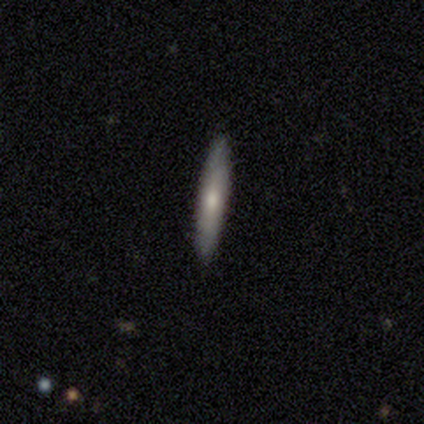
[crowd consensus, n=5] Smooth or featured?
  - smooth: 80% *
  - featured or disk: 20%
  - star or artifact: 0%
How rounded?
  - cigar-shaped: 100% *
  - round: 0%
  - in between: 0%
Merging?
  - none: 100% *
  - minor disturbance: 0%
  - major disturbance: 0%
  - merger: 0%